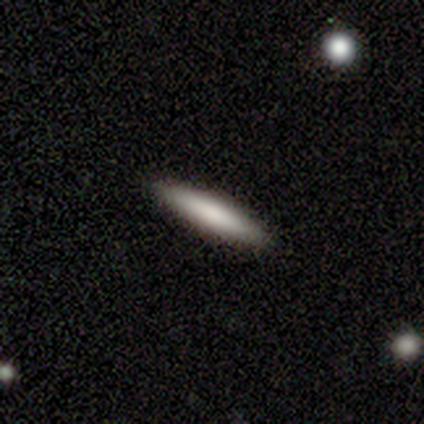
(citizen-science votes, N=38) Smooth or featured: smooth — 74% (featured or disk — 21%)
How rounded: cigar-shaped — 82% (in between — 11%)
Merging: none — 94% (minor disturbance — 3%)